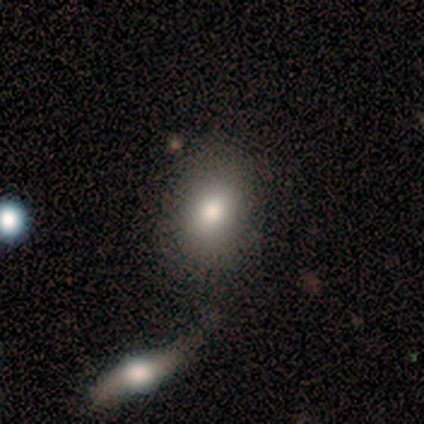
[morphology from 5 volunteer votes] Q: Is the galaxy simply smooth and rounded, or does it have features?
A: smooth — 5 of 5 (100%).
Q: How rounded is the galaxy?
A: in between — 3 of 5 (60%).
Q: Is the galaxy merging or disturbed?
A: none — 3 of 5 (60%).